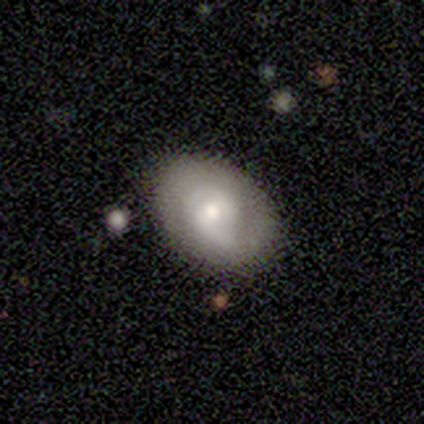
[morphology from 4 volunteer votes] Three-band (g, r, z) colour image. It shows a star or artifact, not a galaxy (50%).